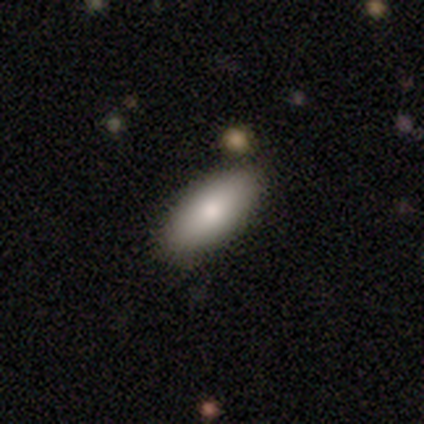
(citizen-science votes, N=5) A smooth galaxy with no disk features (80%) that is in between round and cigar-shaped (100%). Merging: none (100%).